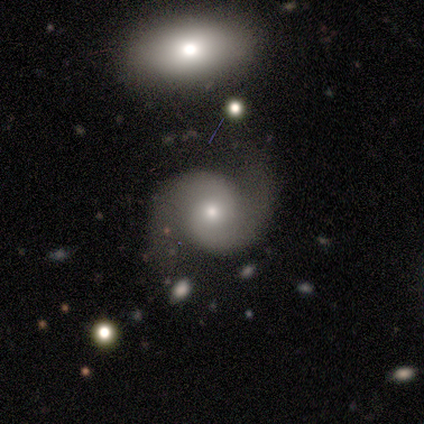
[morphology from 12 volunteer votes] Q: Smooth or featured?
A: featured or disk (83%); runner-up: star or artifact (17%)
Q: Edge-on disk?
A: no (100%)
Q: Bar?
A: no (80%); runner-up: strong (10%)
Q: Spiral arms?
A: yes (100%)
Q: Spiral winding?
A: tight (40%); runner-up: medium (30%)
Q: Spiral arm count?
A: 2 (100%)
Q: Bulge size?
A: small (70%); runner-up: moderate (30%)
Q: Merging?
A: none (80%); runner-up: minor disturbance (20%)